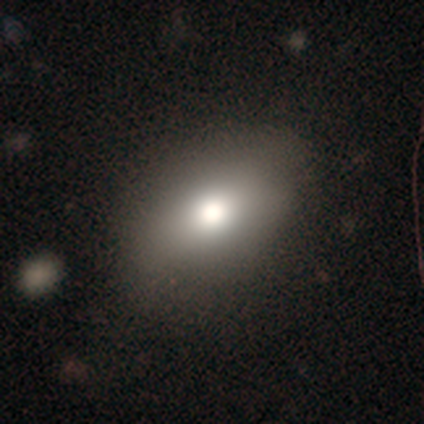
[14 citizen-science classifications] smooth-or-featured: smooth: 79% | featured or disk: 21% | star or artifact: 0%
  how-rounded: in between: 91% | round: 9% | cigar-shaped: 0%
  merging: none: 93% | minor disturbance: 7% | major disturbance: 0% | merger: 0%